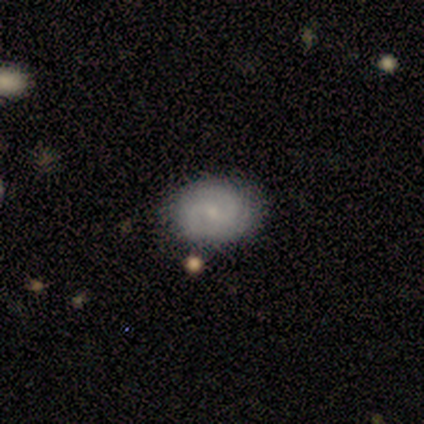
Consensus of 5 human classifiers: This appears to be a smooth galaxy with no disk features (40%, tied with featured or disk) that is round (100%). Merging: none (75%).